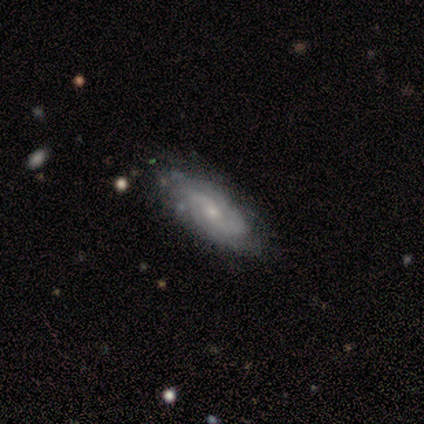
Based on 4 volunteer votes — This appears to be a featured or disk galaxy (100%) with a weak bar (67%), 2 (67%) tight (33%, tied with medium and loose) spiral arms (100%) and a small central bulge (100%). Merging: none (75%).